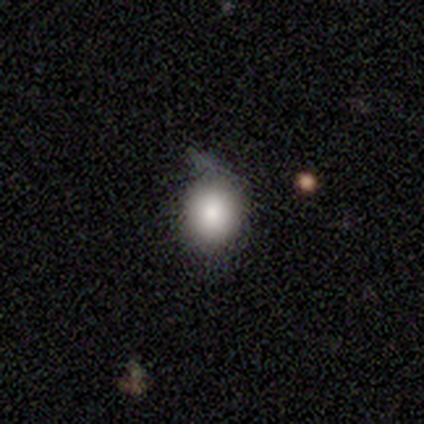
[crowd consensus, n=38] This appears to be a smooth galaxy with no disk features (87%) that is round (64%). Merging: minor disturbance (50%).